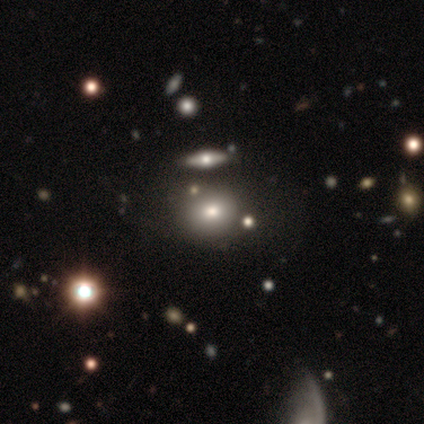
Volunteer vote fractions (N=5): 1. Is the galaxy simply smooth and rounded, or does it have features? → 80% smooth, 20% featured or disk, 0% star or artifact.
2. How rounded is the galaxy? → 75% round, 25% in between, 0% cigar-shaped.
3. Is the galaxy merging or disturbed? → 80% none, 20% minor disturbance, 0% major disturbance, 0% merger.